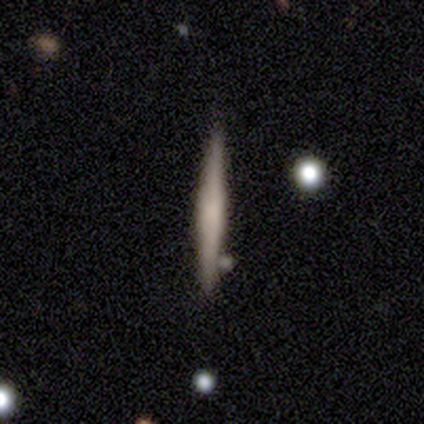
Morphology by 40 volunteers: Smooth or featured? 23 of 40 (57%) said featured or disk. Edge-on disk? 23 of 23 (100%) said yes. Edge-on bulge? 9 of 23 (39%) said none. Merging? 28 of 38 (74%) said none.